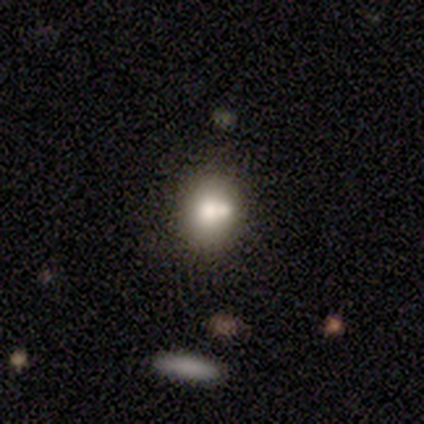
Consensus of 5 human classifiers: A smooth galaxy with no disk features (100%) that is round (60%).

Vote fractions:
- Smooth or featured? smooth: 100% / featured or disk: 0% / star or artifact: 0%
- How rounded? round: 60% / in between: 40% / cigar-shaped: 0%
- Merging? none: 80% / merger: 20% / minor disturbance: 0% / major disturbance: 0%